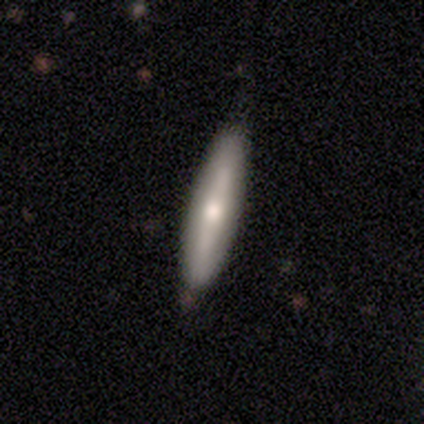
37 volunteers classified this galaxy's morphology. smooth 54%, featured or disk 46%, star or artifact 0%. Down the decision tree: how rounded — cigar-shaped (90%); merging — none (46%).